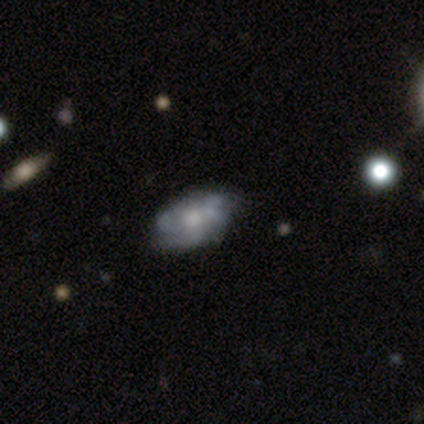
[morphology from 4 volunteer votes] Smooth or featured? 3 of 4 (75%) said featured or disk. Edge-on disk? 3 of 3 (100%) said no. Bar? 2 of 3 (67%) said no. Spiral arms? 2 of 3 (67%) said yes. Spiral winding? 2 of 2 (100%) said medium. Spiral arm count? 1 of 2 (50%, tied with 3) said 2. Bulge size? 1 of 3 (33%, tied with small and none) said large. Merging? 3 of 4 (75%) said none.